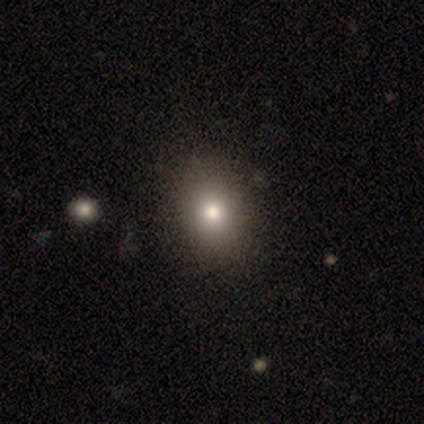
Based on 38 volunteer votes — Morphology: type=smooth (71%); roundness=round (59%); merging=none (61%).